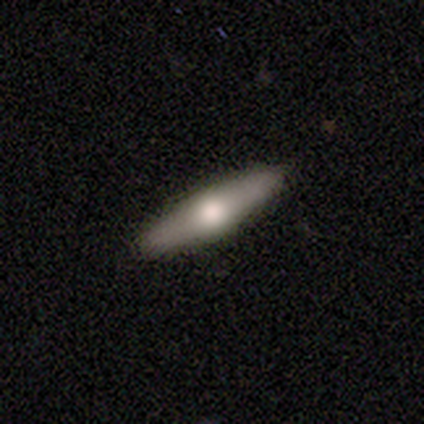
Smooth or featured? featured or disk (60%)
Edge-on disk? yes (67%)
Edge-on bulge? rounded (100%)
Merging? none (100%)